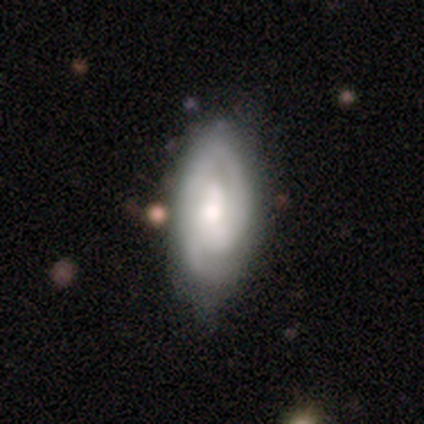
Smooth or featured? 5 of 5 (100%) said featured or disk. Edge-on disk? 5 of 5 (100%) said no. Bar? 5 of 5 (100%) said no. Spiral arms? 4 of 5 (80%) said yes. Spiral winding? 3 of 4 (75%) said medium. Spiral arm count? 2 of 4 (50%) said 2. Bulge size? 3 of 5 (60%) said moderate. Merging? 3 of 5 (60%) said none.